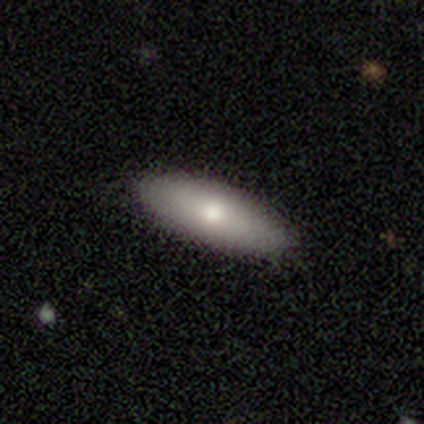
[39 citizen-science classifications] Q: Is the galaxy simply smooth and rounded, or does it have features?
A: smooth — 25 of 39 (64%).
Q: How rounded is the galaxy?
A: in between — 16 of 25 (64%).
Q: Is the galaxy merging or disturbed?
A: none — 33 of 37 (89%).